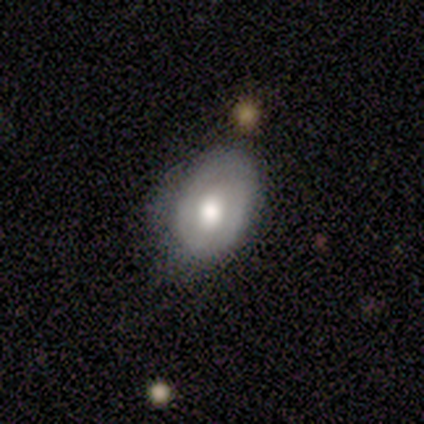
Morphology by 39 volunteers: A smooth galaxy with no disk features (62%) that is in between round and cigar-shaped (96%).

Vote fractions:
- Smooth or featured? smooth: 62% / featured or disk: 31% / star or artifact: 8%
- How rounded? in between: 96% / round: 4% / cigar-shaped: 0%
- Merging? none: 61% / minor disturbance: 33% / major disturbance: 3% / merger: 3%